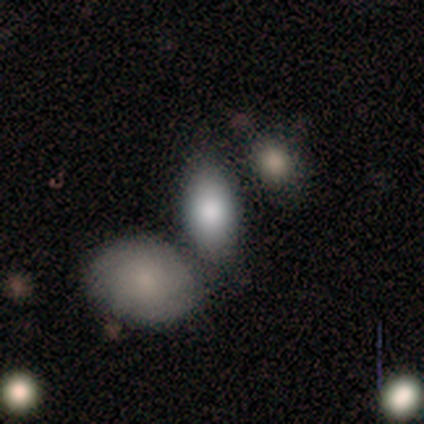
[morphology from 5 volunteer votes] This appears to be a smooth galaxy with no disk features (100%) that is in between round and cigar-shaped (100%). Merging: none (80%).